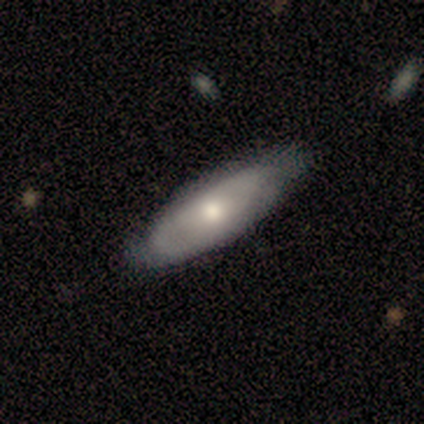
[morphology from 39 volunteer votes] Smooth or featured: smooth — 49% (tied with featured or disk — 49%)
How rounded: in between — 68% (cigar-shaped — 32%)
Merging: none — 63% (minor disturbance — 32%)